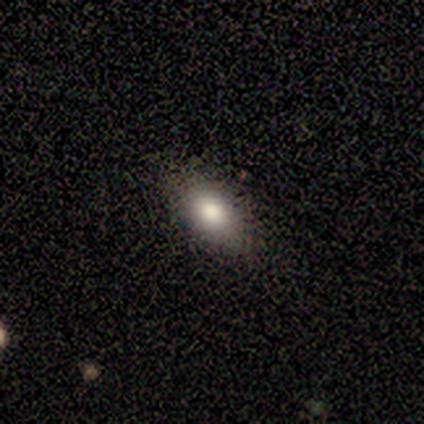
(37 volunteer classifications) A smooth galaxy with no disk features (76%) that is in between round and cigar-shaped (86%). Merging: none (84%).